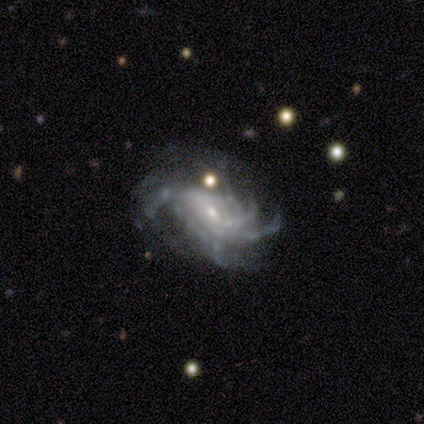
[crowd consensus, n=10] A featured or disk galaxy (100%) with no bar (67%), more than 4 (67%) tight (44%) spiral arms (100%) and a small central bulge (89%). Merging: none (40%, tied with minor disturbance).